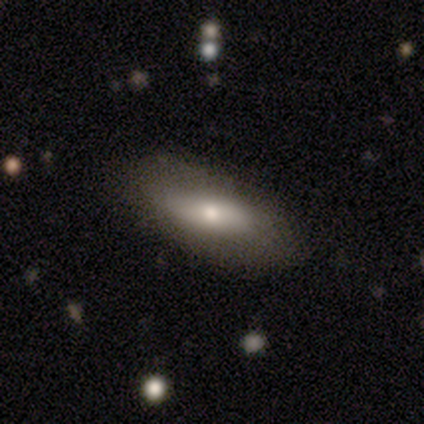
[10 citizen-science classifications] Smooth or featured?
  - smooth: 70% *
  - featured or disk: 30%
  - star or artifact: 0%
How rounded?
  - in between: 71% *
  - cigar-shaped: 29%
  - round: 0%
Merging?
  - none: 90% *
  - minor disturbance: 10%
  - major disturbance: 0%
  - merger: 0%